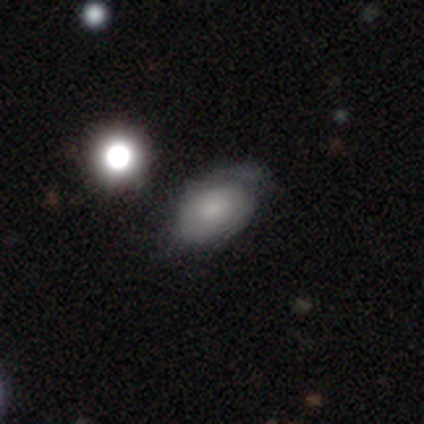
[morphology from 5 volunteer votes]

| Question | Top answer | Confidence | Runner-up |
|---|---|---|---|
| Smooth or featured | smooth | 40% | tied: featured or disk (40%) |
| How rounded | round | 50% | tied: in between (50%) |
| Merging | none | 100% | — |